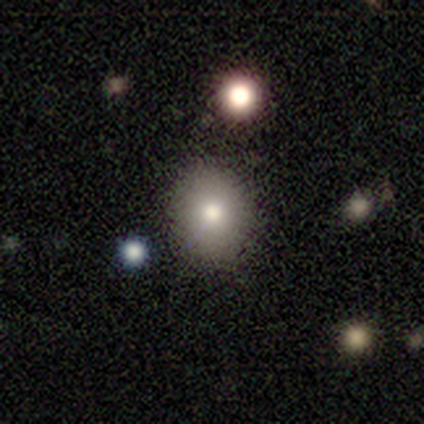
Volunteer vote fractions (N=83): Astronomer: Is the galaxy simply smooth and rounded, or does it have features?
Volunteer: smooth — 76%.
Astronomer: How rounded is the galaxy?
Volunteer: round — 75%.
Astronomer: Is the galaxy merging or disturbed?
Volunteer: none — 92%.